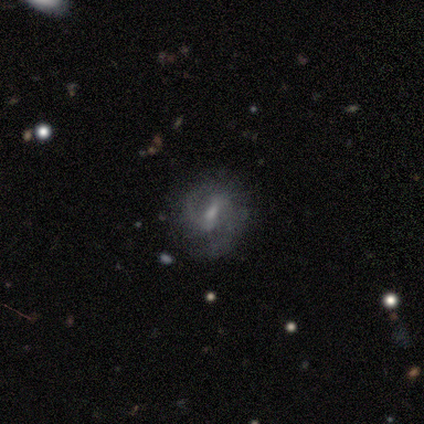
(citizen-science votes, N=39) featured or disk 79%, smooth 13%, star or artifact 8%. Down the decision tree: edge-on disk — no (94%); bar — weak (66%); spiral arms — yes (93%); spiral arm count — 2 (78%); spiral winding — medium (48%); bulge size — small (66%); merging — none (92%).